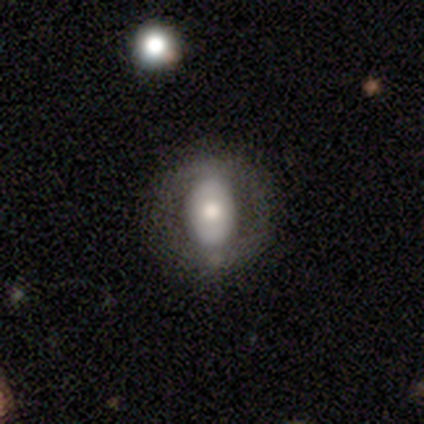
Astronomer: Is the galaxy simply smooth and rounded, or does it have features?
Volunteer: featured or disk — 75%.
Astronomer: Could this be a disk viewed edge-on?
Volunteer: no — 100%.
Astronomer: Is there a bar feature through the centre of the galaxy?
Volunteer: no — 67%.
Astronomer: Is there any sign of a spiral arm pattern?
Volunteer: no — 67%.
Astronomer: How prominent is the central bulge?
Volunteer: moderate — 67%.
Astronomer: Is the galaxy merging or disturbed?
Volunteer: none — 100%.